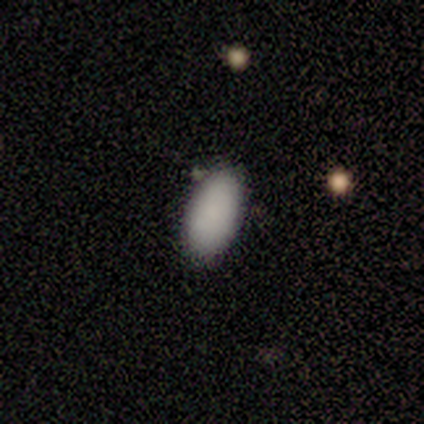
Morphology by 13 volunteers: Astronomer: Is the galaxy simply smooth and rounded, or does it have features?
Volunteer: smooth — 100%.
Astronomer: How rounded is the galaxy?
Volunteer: in between — 100%.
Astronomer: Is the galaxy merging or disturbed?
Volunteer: none — 92%.